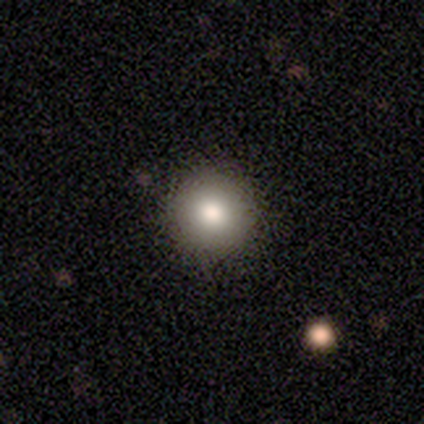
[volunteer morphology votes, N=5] Q: Smooth or featured?
A: smooth (80%); runner-up: star or artifact (20%)
Q: How rounded?
A: round (100%)
Q: Merging?
A: none (75%); runner-up: minor disturbance (25%)